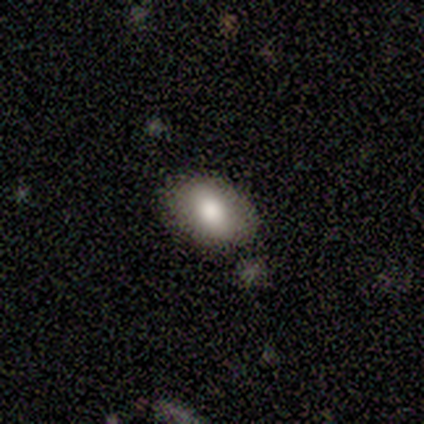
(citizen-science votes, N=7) Morphology: type=smooth (100%); roundness=in between (100%); merging=none (86%).